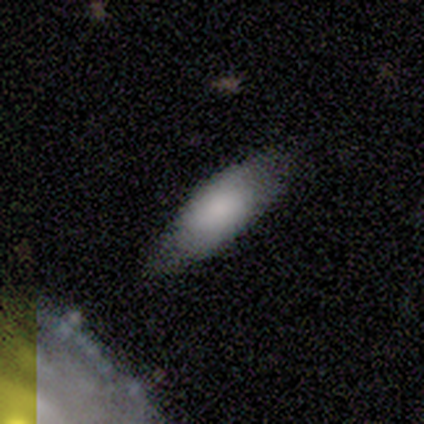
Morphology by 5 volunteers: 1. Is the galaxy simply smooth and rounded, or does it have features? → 100% smooth, 0% featured or disk, 0% star or artifact.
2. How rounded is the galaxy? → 100% in between, 0% round, 0% cigar-shaped.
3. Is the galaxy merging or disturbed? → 60% minor disturbance, 20% none, 20% major disturbance, 0% merger.